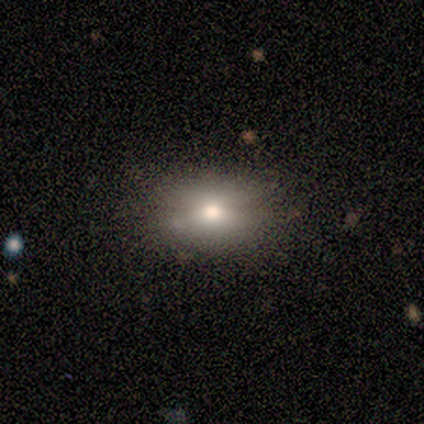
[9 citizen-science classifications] Overall: smooth (89%). How rounded: in between (62%; round 38%). Merging: none (62%; minor disturbance 38%).